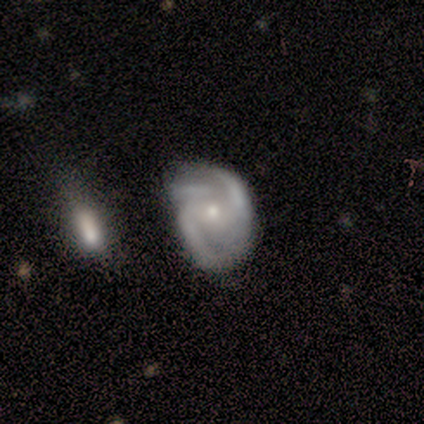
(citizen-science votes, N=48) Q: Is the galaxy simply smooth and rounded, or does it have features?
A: featured or disk — 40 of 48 (83%).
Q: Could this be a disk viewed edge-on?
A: no — 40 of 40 (100%).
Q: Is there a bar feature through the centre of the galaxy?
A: no — 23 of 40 (57%).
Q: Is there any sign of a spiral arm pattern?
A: yes — 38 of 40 (95%).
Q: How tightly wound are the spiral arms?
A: medium — 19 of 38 (50%).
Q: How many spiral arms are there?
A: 2 — 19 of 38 (50%).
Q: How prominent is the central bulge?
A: small — 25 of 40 (62%).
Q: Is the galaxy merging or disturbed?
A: minor disturbance — 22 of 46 (48%).